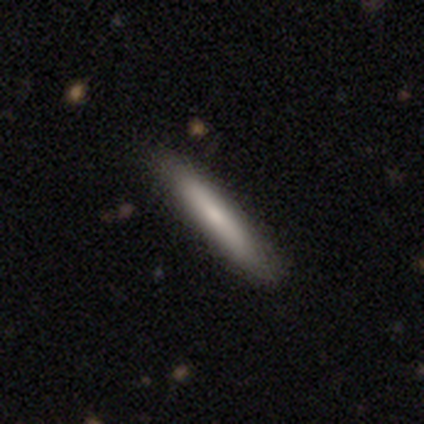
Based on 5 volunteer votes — smooth_or_featured: smooth (p=0.80) [alt: featured or disk p=0.20]
how_rounded: cigar-shaped (p=1.00)
merging: none (p=0.80) [alt: minor disturbance p=0.20]